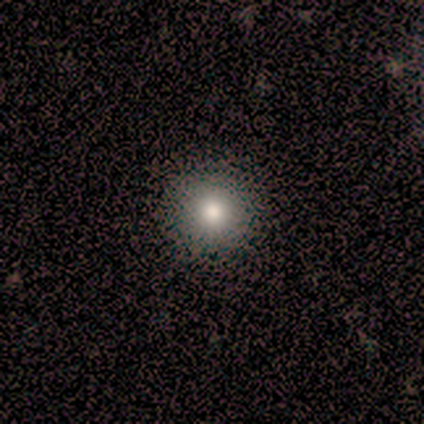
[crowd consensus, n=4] Smooth or featured? 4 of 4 (100%) said smooth. How rounded? 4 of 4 (100%) said round. Merging? 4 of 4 (100%) said none.